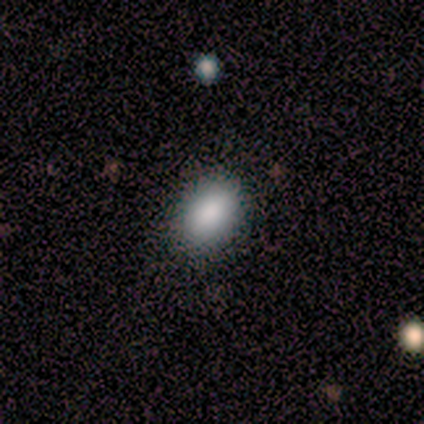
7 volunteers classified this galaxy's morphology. Smooth or featured: smooth — 100%
How rounded: in between — 100%
Merging: none — 100%